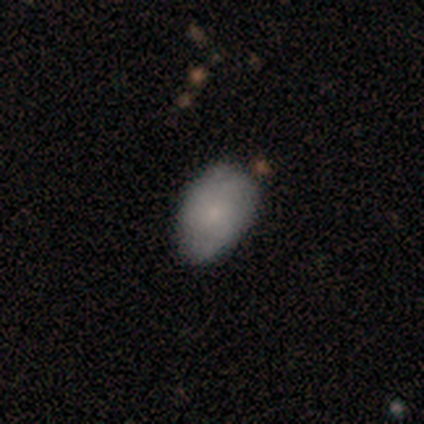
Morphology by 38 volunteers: Overall: smooth (68%). How rounded: in between (100%). Merging: none (77%).